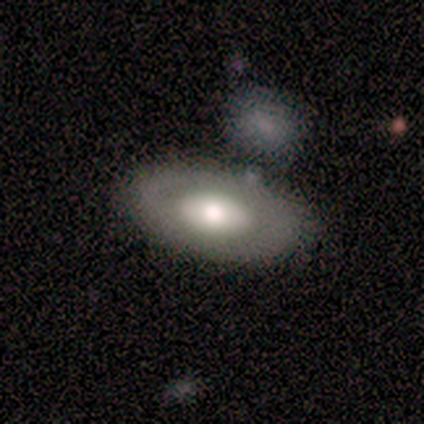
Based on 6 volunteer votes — Volunteers were most divided on "smooth or featured" (2-way tie): smooth: 50%, featured or disk: 50%, star or artifact: 0%. More confident: how rounded — in between (100%); merging — none (50%).